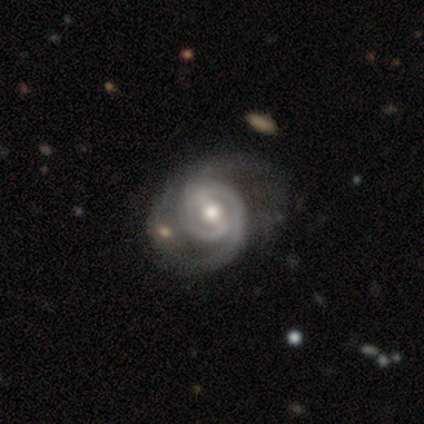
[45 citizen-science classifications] Morphology: type=featured or disk (82%); edge-on=no (100%); bar=strong (59%); spiral arms=yes (100%); winding=tight (46%); arm count=2 (73%); bulge=moderate (65%); merging=none (40%).